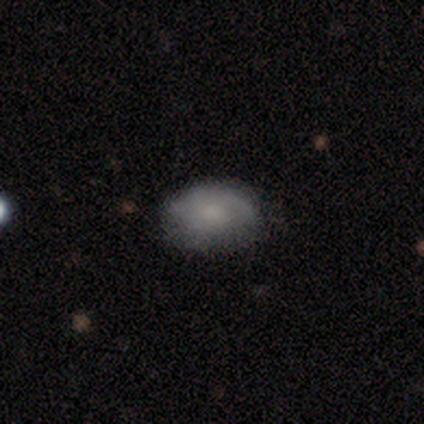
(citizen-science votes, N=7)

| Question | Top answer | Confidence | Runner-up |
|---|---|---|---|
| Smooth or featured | smooth | 57% | featured or disk (43%) |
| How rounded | round | 50% | tied: in between (50%) |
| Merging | none | 43% | tied: minor disturbance (43%) |